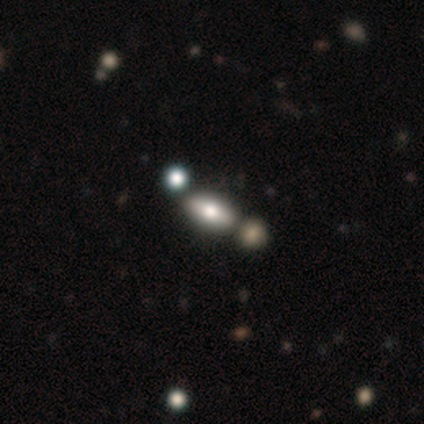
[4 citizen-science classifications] Smooth or featured?
  - featured or disk: 75% *
  - smooth: 25%
  - star or artifact: 0%
Edge-on disk?
  - yes: 100% *
  - no: 0%
Edge-on bulge?
  - rounded: 100% *
  - boxy: 0%
  - none: 0%
Merging?
  - none: 100% *
  - minor disturbance: 0%
  - major disturbance: 0%
  - merger: 0%